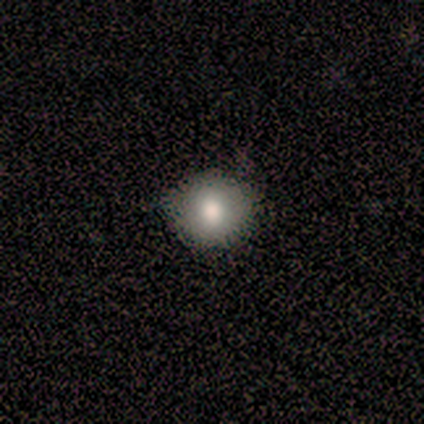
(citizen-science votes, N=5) Volunteers were most divided on "merging": none: 75%, major disturbance: 25%, minor disturbance: 0%, merger: 0%. More confident: how rounded — round (100%); smooth or featured — smooth (80%).